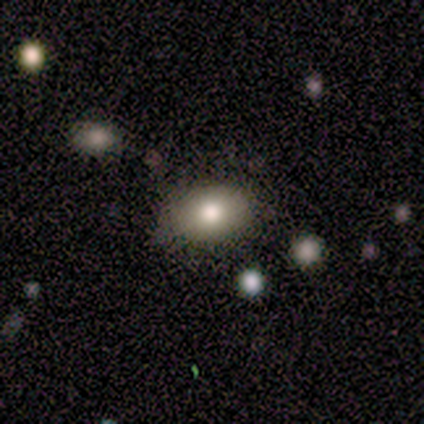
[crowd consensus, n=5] A smooth galaxy with no disk features (100%) that is in between round and cigar-shaped (100%). Merging: none (100%).